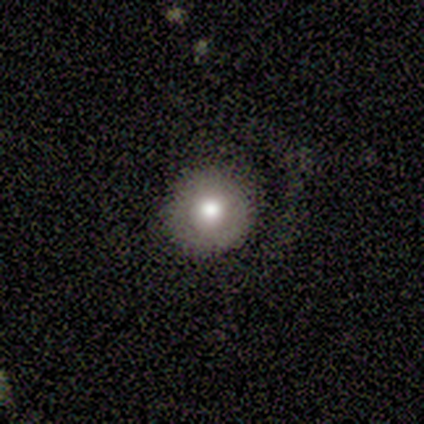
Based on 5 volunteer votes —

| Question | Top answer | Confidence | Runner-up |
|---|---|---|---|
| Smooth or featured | smooth | 100% | — |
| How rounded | round | 100% | — |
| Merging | none | 60% | minor disturbance (20%) |